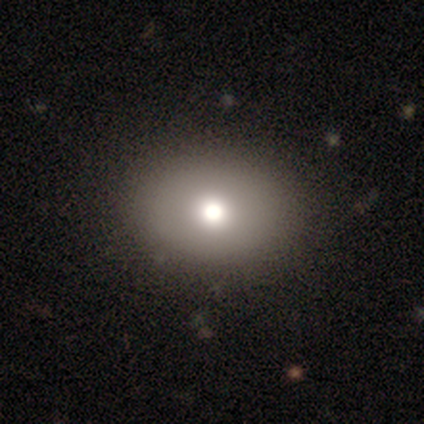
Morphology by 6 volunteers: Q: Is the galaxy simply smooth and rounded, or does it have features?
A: smooth — 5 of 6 (83%).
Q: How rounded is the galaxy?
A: in between — 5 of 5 (100%).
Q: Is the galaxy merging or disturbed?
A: none — 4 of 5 (80%).